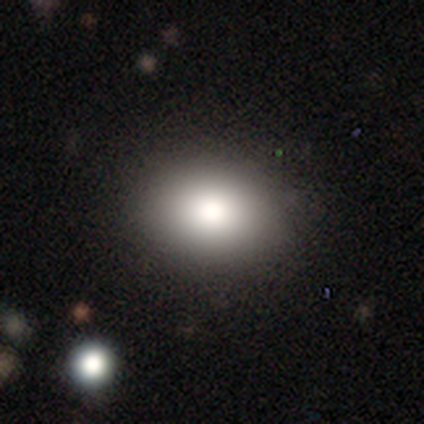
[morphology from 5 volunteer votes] Q: Smooth or featured?
A: smooth (80%); runner-up: featured or disk (20%)
Q: How rounded?
A: in between (100%)
Q: Merging?
A: none (80%); runner-up: major disturbance (20%)